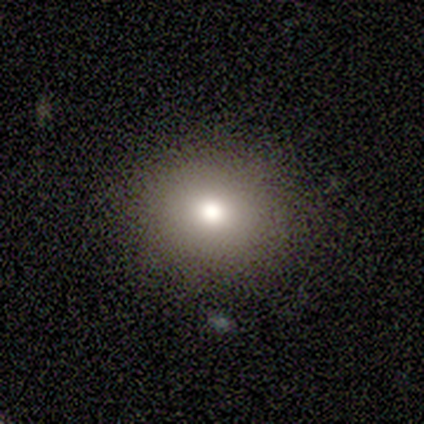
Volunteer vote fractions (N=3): Smooth or featured: smooth — 67% (featured or disk — 33%)
How rounded: round — 100%
Merging: none — 100%